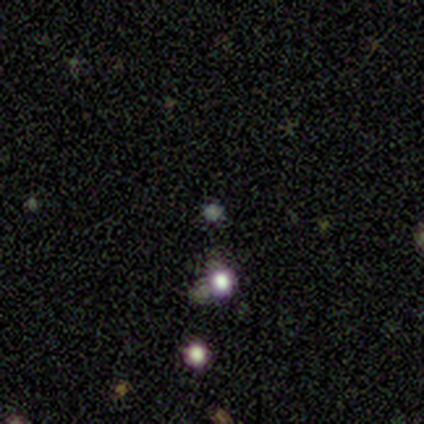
Smooth or featured: star or artifact — 75% (smooth — 25%)